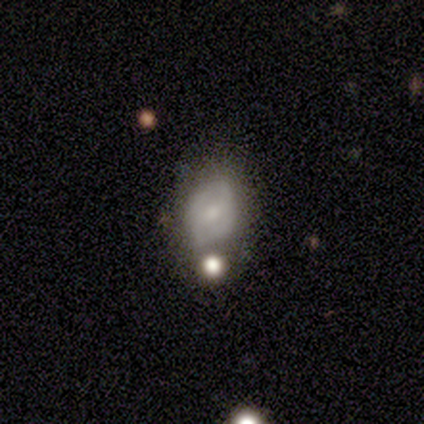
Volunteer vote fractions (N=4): Overall: smooth (75%). How rounded: in between (100%). Merging: none (50%, tied with major disturbance).